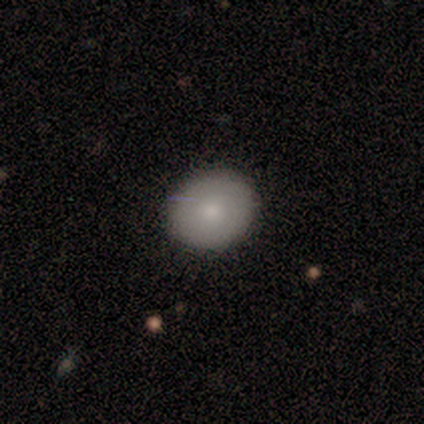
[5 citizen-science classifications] Q: Smooth or featured?
A: smooth (100%)
Q: How rounded?
A: round (80%); runner-up: in between (20%)
Q: Merging?
A: none (100%)